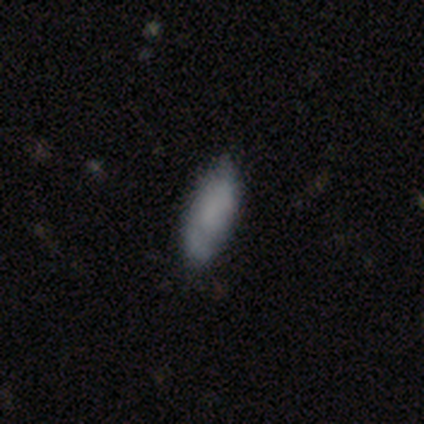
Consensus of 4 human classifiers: Smooth or featured: smooth — 100%
How rounded: in between — 75% (cigar-shaped — 25%)
Merging: none — 100%